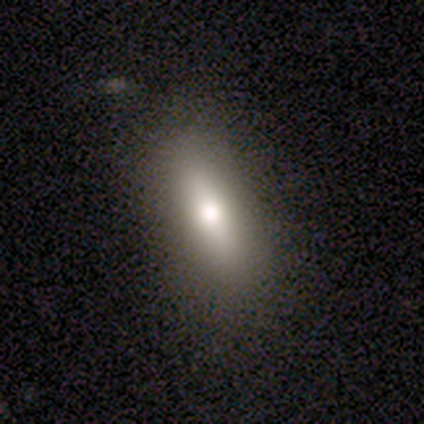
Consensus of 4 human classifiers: Smooth or featured?
  - smooth: 75% *
  - star or artifact: 25%
  - featured or disk: 0%
How rounded?
  - in between: 67% *
  - cigar-shaped: 33%
  - round: 0%
Merging?
  - none: 67% *
  - minor disturbance: 33%
  - major disturbance: 0%
  - merger: 0%